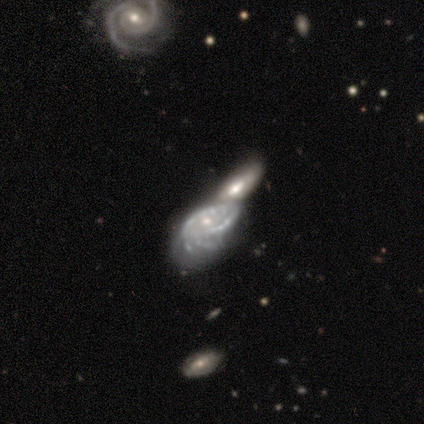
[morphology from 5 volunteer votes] type=featured or disk (100%); edge-on=no (100%); bar=weak (60%); spiral arms=yes (80%); winding=tight (50%, tied with medium); arm count=can't tell (50%); bulge=small (60%); merging=merger (80%).